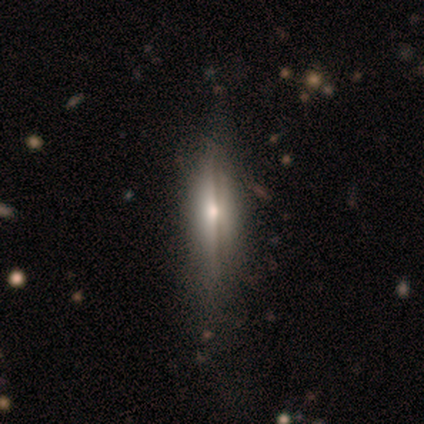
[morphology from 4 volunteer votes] Smooth or featured: featured or disk — 100%
Edge-on disk: yes — 100%
Edge-on bulge: rounded — 100%
Merging: none — 100%